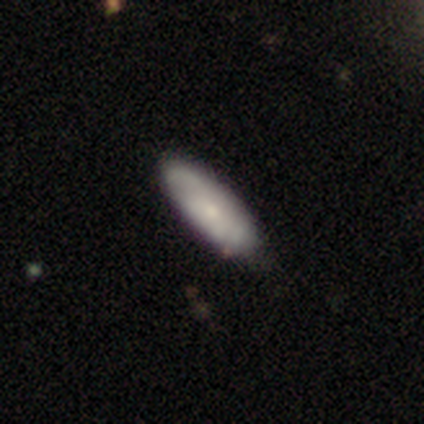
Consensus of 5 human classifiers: Volunteers were most divided on "spiral winding" (2-way tie): medium: 50%, loose: 50%, tight: 0%; "spiral arm count" (2-way tie): 2: 50%, can't tell: 50%, 1: 0%, 3: 0%, 4: 0%, more than 4: 0%. More confident: bar — no (100%); smooth or featured — featured or disk (80%); edge-on disk — no (75%); spiral arms — yes (67%); bulge size — moderate (67%); merging — none (60%).